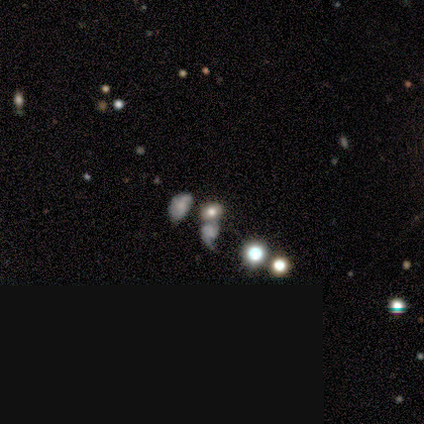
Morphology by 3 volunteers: A smooth galaxy with no disk features (33%, tied with featured or disk and star or artifact) that is in between round and cigar-shaped (100%). Merging: minor disturbance (50%, tied with merger).